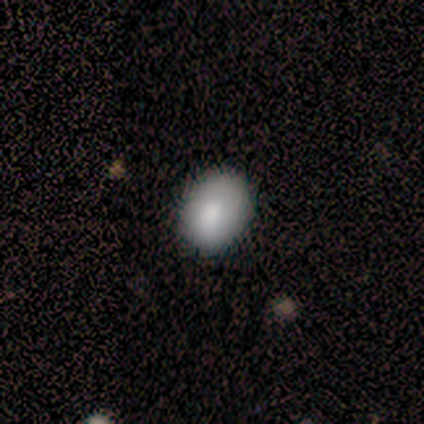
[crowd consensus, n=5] Smooth or featured? smooth (100%)
How rounded? round (60%)
Merging? none (100%)